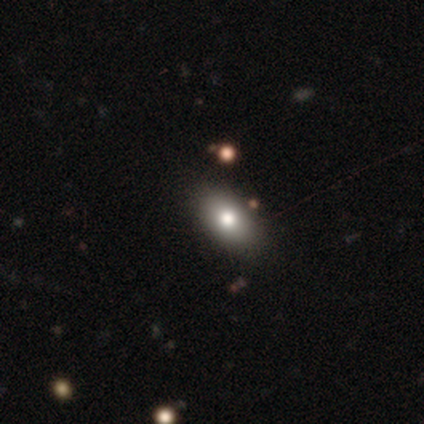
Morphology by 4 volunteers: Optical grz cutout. It shows a smooth galaxy with no disk features (75%) that is in between round and cigar-shaped (67%). Merging: none (100%).